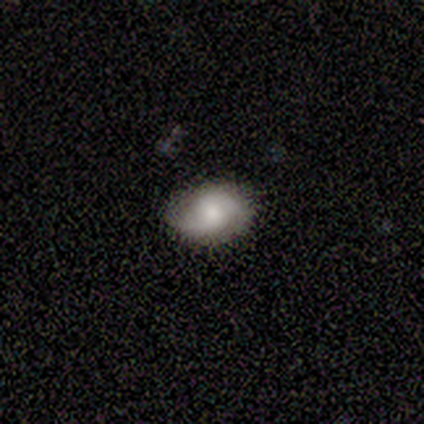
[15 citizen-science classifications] A featured or disk galaxy (47%) with no bar (57%), 2 (86%) medium (57%) spiral arms (100%) and a moderate central bulge (57%).

Vote fractions:
- Smooth or featured? featured or disk: 47% / smooth: 40% / star or artifact: 13%
- Edge-on disk? no: 100% / yes: 0%
- Bar? no: 57% / weak: 43% / strong: 0%
- Spiral arms? yes: 100% / no: 0%
- Spiral winding? medium: 57% / loose: 43% / tight: 0%
- Spiral arm count? 2: 86% / can't tell: 14% / 1: 0% / 3: 0% / 4: 0% / more than 4: 0%
- Bulge size? moderate: 57% / small: 29% / large: 14% / dominant: 0% / none: 0%
- Merging? none: 100% / minor disturbance: 0% / major disturbance: 0% / merger: 0%